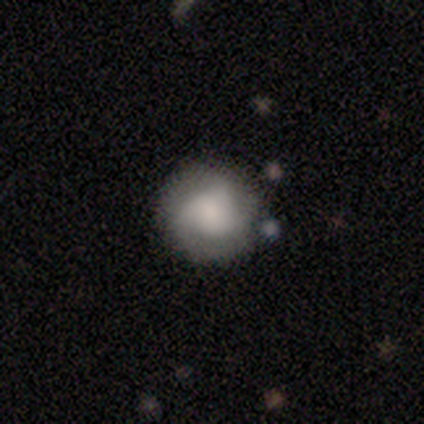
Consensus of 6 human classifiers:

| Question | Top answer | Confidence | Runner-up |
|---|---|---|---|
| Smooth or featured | featured or disk | 50% | smooth (33%) |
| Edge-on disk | no | 100% | — |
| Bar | no | 100% | — |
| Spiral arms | yes | 67% | no (33%) |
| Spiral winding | tight | 100% | — |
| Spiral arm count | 3 | 100% | — |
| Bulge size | large | 67% | moderate (33%) |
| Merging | none | 60% | minor disturbance (40%) |